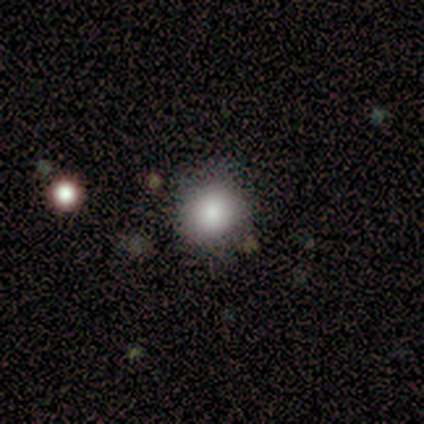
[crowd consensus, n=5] This appears to be a smooth galaxy with no disk features (80%) that is round (100%). Merging: none (100%).